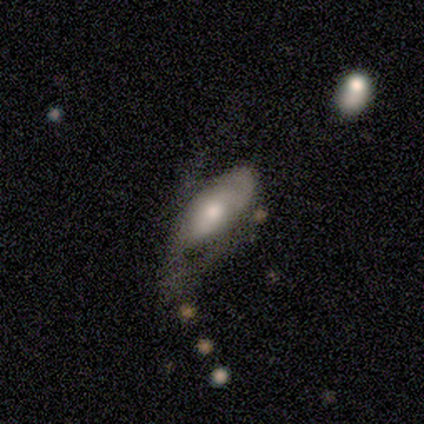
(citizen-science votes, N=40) This appears to be a smooth galaxy with no disk features (50%) that is in between round and cigar-shaped (100%). Merging: major disturbance (46%).